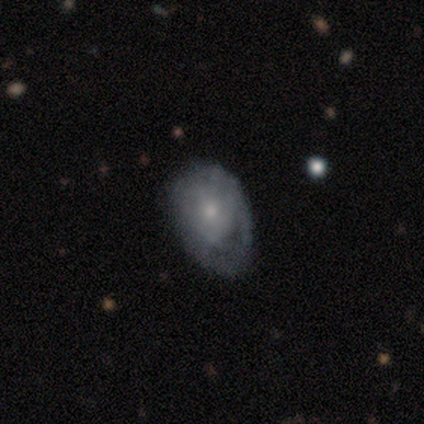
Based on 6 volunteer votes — Smooth or featured: smooth — 50% (tied with featured or disk — 50%)
How rounded: round — 67% (cigar-shaped — 33%)
Merging: none — 33% (tied with major disturbance — 33%)